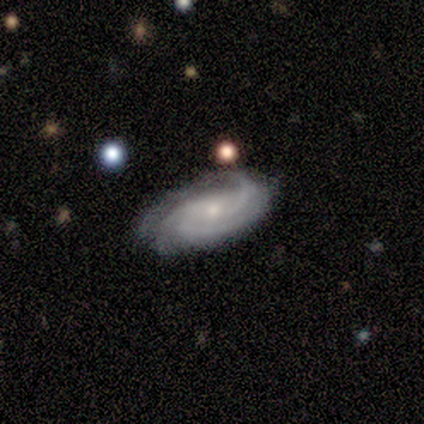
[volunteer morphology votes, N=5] Smooth or featured? 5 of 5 (100%) said featured or disk. Edge-on disk? 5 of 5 (100%) said no. Bar? 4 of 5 (80%) said no. Spiral arms? 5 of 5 (100%) said yes. Spiral winding? 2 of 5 (40%, tied with medium) said tight. Spiral arm count? 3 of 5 (60%) said 3. Bulge size? 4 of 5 (80%) said small. Merging? 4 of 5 (80%) said none.